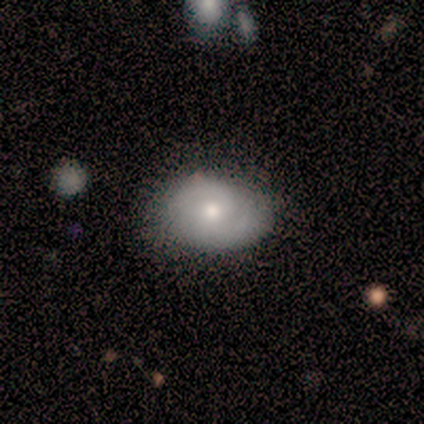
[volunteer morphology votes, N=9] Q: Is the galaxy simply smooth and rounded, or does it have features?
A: smooth — 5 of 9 (56%).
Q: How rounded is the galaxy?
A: in between — 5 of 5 (100%).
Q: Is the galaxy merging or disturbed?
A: none — 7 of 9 (78%).